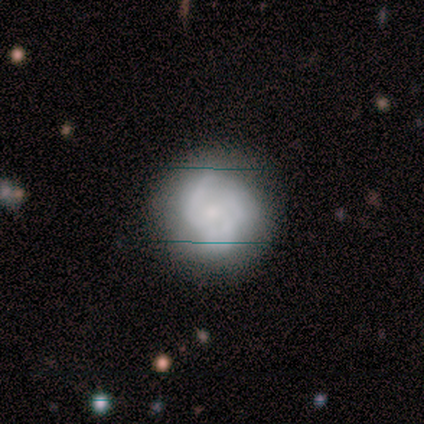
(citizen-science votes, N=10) A featured or disk galaxy (70%) with no bar (100%), medium (50%) spiral arms (86%) and a small central bulge (43%).

Vote fractions:
- Smooth or featured? featured or disk: 70% / smooth: 30% / star or artifact: 0%
- Edge-on disk? no: 100% / yes: 0%
- Bar? no: 100% / strong: 0% / weak: 0%
- Spiral arms? yes: 86% / no: 14%
- Spiral winding? medium: 50% / tight: 33% / loose: 17%
- Spiral arm count? can't tell: 67% / 3: 33% / 1: 0% / 2: 0% / 4: 0% / more than 4: 0%
- Bulge size? small: 43% / moderate: 29% / large: 14% / none: 14% / dominant: 0%
- Merging? none: 70% / minor disturbance: 30% / major disturbance: 0% / merger: 0%